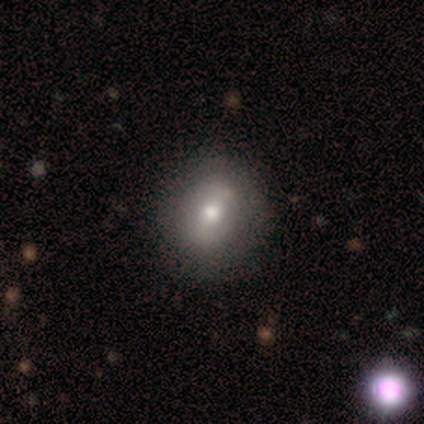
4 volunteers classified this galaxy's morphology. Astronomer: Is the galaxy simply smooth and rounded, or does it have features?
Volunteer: smooth — 75%.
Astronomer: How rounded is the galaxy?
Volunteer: round — 100%.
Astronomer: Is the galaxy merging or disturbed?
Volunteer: none — 100%.